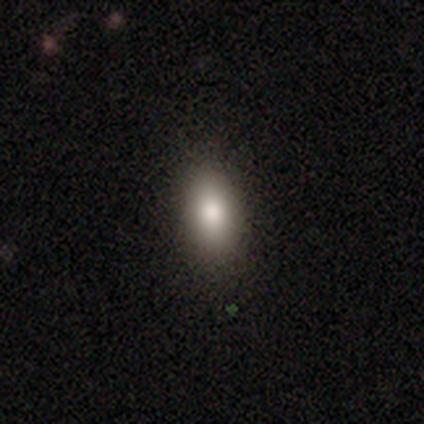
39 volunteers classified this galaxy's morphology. smooth_or_featured: smooth (p=0.87) [alt: featured or disk p=0.08]
how_rounded: in between (p=0.85) [alt: cigar-shaped p=0.09]
merging: none (p=0.89) [alt: minor disturbance p=0.11]